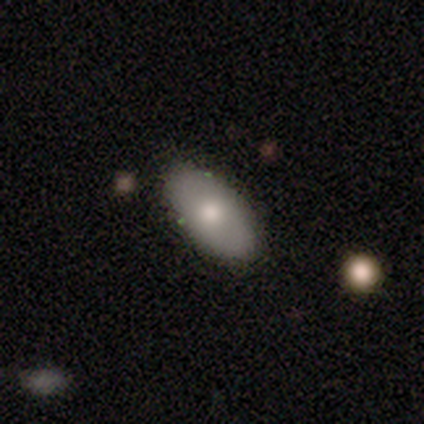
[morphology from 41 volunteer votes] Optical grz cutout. It shows a smooth galaxy with no disk features (73%) that is in between round and cigar-shaped (90%). Merging: none (87%).